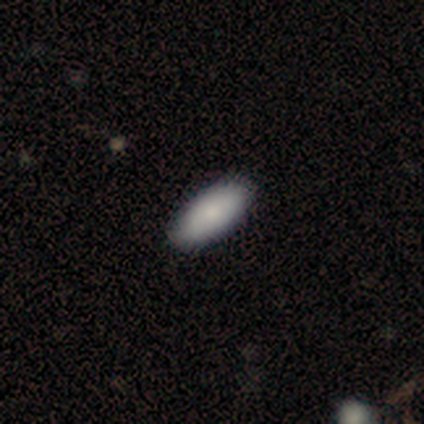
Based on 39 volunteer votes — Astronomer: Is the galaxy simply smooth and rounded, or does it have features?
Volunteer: smooth — 87%.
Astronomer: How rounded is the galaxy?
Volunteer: in between — 97%.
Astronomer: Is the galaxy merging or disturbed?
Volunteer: none — 92%.